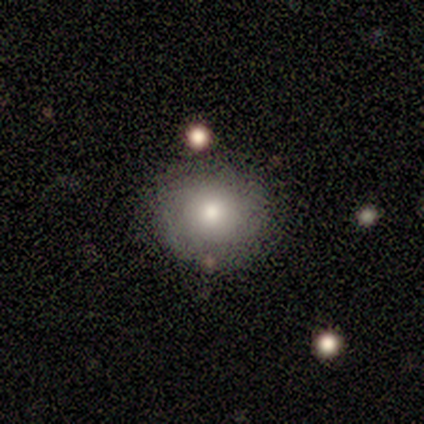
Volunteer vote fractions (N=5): Morphology: type=smooth (100%); roundness=round (60%); merging=none (100%).